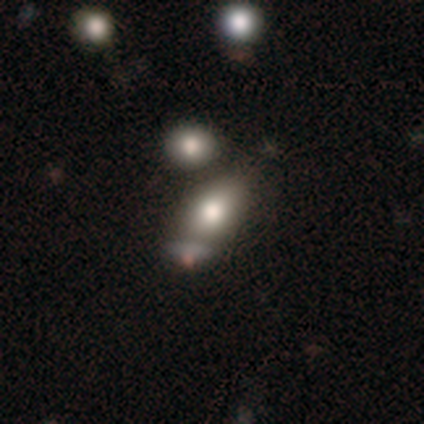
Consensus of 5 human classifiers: smooth_or_featured: smooth (p=1.00)
how_rounded: in between (p=1.00)
merging: minor disturbance (p=0.60) [alt: none p=0.20]